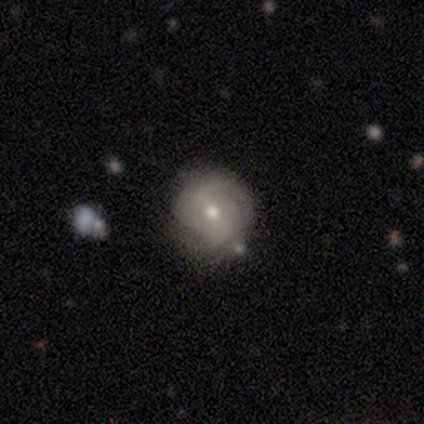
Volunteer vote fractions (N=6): smooth_or_featured: featured or disk (p=1.00)
disk_edge_on: no (p=0.83) [alt: yes p=0.17]
bar: no (p=0.60) [alt: weak p=0.40]
has_spiral_arms: yes (p=1.00)
spiral_winding: tight (p=1.00)
spiral_arm_count: can't tell (p=0.80) [alt: 2 p=0.20]
bulge_size: moderate (p=0.80) [alt: small p=0.20]
merging: none (p=0.50) [alt: minor disturbance p=0.33]